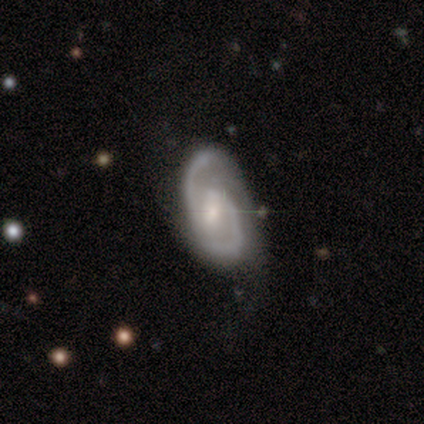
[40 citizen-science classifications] This is clearly a featured or disk galaxy (88%). It is clearly not viewed edge-on (97%). Bar: likely weak (74%). Spiral arm pattern: clearly yes (100%). Spiral arm count: clearly 2 (94%). Spiral winding: likely medium (68%). Central bulge: likely small (71%). Merging: likely none (66%).